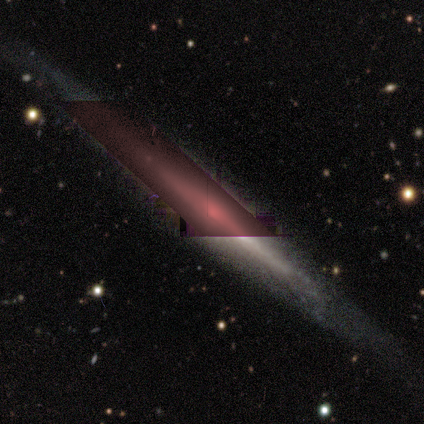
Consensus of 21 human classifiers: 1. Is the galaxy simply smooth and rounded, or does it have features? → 62% featured or disk, 24% star or artifact, 14% smooth.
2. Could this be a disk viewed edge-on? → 100% yes, 0% no.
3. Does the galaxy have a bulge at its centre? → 69% rounded, 23% none, 8% boxy.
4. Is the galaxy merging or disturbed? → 88% none, 6% minor disturbance, 6% major disturbance, 0% merger.